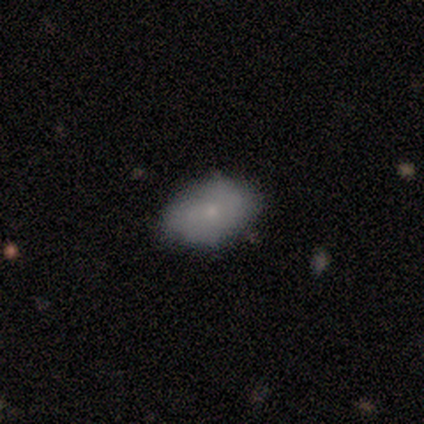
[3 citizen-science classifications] Smooth or featured: smooth — 33% (tied with featured or disk — 33%; star or artifact — 33%)
How rounded: in between — 100%
Merging: none — 50% (tied with minor disturbance — 50%)